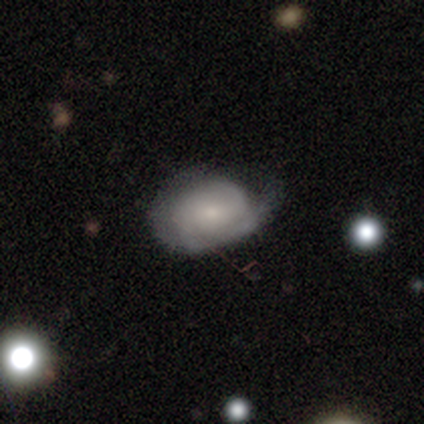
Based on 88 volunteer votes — This appears to be a featured or disk galaxy (56%) with no bar (58%), 2 (46%) medium (49%) spiral arms (87%) and a small central bulge (64%). Merging: none (48%).